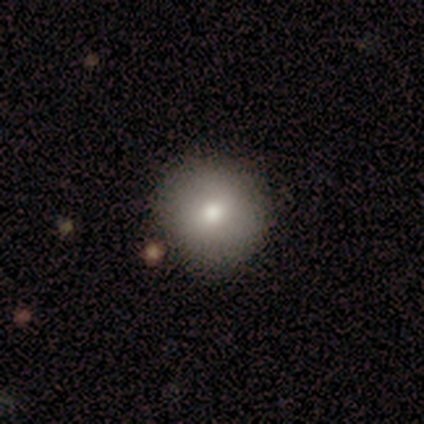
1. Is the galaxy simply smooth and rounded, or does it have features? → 78% smooth, 11% featured or disk, 11% star or artifact.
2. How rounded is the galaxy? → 100% round, 0% in between, 0% cigar-shaped.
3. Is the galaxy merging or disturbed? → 88% none, 12% minor disturbance, 0% major disturbance, 0% merger.